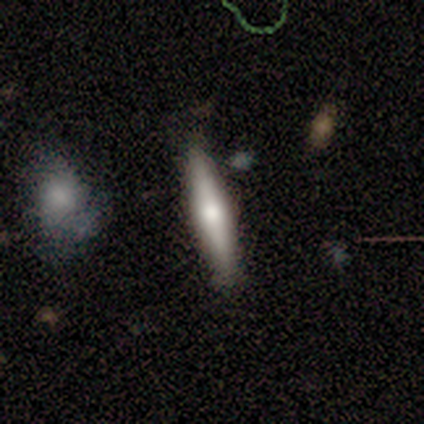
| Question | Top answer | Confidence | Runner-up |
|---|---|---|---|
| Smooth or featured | smooth | 60% | featured or disk (40%) |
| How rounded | cigar-shaped | 67% | in between (33%) |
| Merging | none | 80% | minor disturbance (20%) |